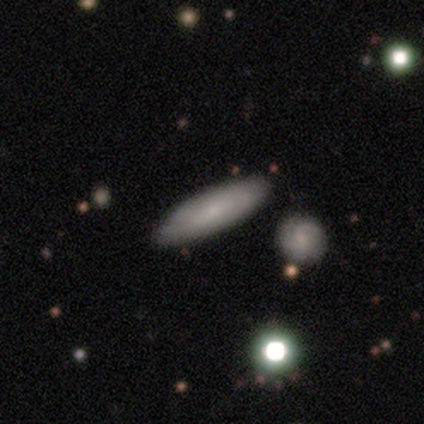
This appears to be a smooth galaxy with no disk features (67%) that is cigar-shaped (75%). Merging: none (60%).